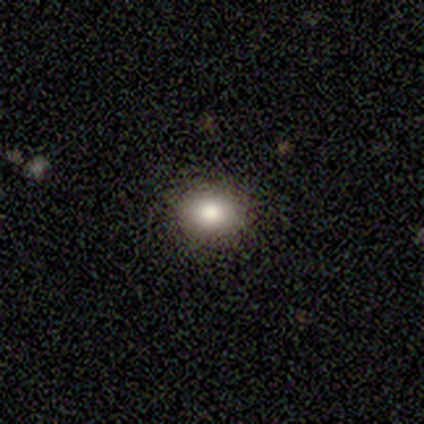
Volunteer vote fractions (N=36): Smooth or featured? 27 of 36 (75%) said smooth. How rounded? 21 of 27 (78%) said round. Merging? 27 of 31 (87%) said none.